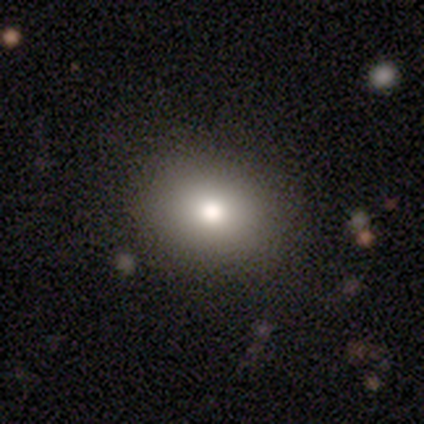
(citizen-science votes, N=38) smooth-or-featured: smooth: 89% | featured or disk: 8% | star or artifact: 3%
  how-rounded: in between: 53% | round: 47% | cigar-shaped: 0%
  merging: none: 68% | merger: 5% | minor disturbance: 3% | major disturbance: 0%